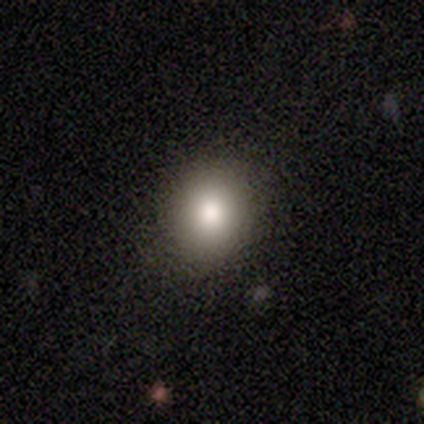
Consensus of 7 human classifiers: Volunteers were most divided on "how rounded": round: 83%, in between: 17%, cigar-shaped: 0%. More confident: merging — none (100%); smooth or featured — smooth (86%).